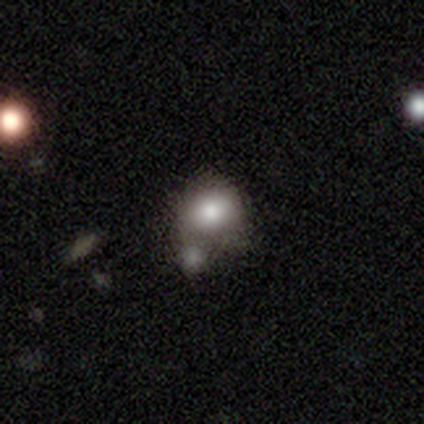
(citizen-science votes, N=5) Q: Smooth or featured?
A: smooth (60%); runner-up: featured or disk (20%)
Q: How rounded?
A: round (67%); runner-up: in between (33%)
Q: Merging?
A: none (25%); tied with: minor disturbance (25%); major disturbance (25%); merger (25%)